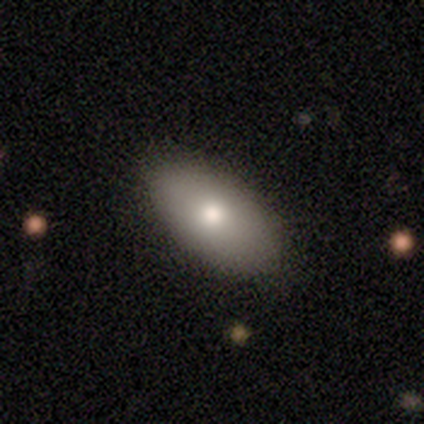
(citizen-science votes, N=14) This appears to be a smooth galaxy with no disk features (93%) that is in between round and cigar-shaped (92%). Merging: none (92%).